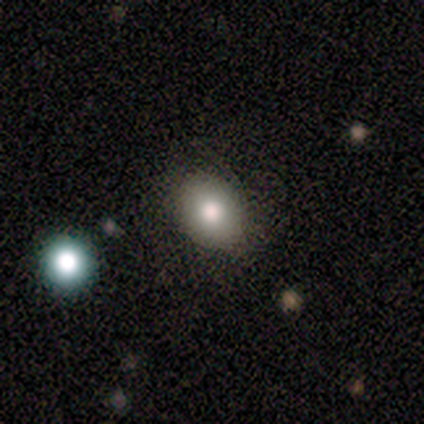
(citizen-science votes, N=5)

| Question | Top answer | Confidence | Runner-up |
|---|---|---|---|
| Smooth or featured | smooth | 60% | featured or disk (20%) |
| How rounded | round | 67% | in between (33%) |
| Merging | none | 100% | — |